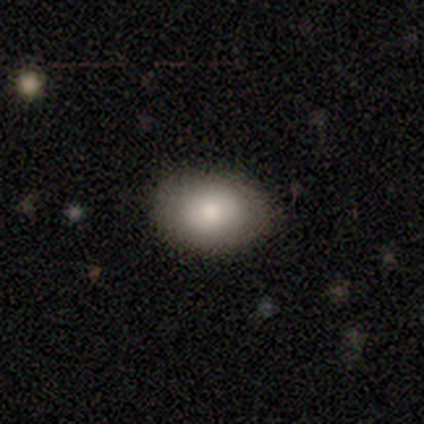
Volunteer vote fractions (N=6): smooth_or_featured: smooth (p=0.83) [alt: featured or disk p=0.17]
how_rounded: in between (p=1.00)
merging: none (p=1.00)